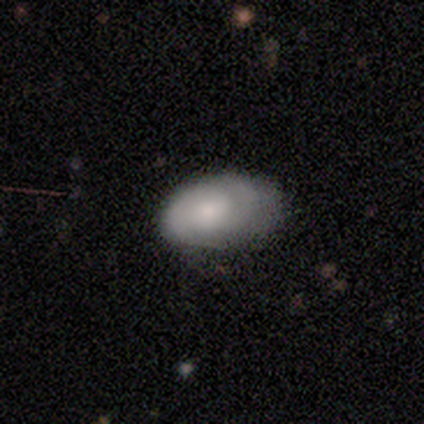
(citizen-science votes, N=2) This appears to be a smooth galaxy with no disk features (50%, tied with featured or disk) that is in between round and cigar-shaped (100%). Merging: minor disturbance (100%).